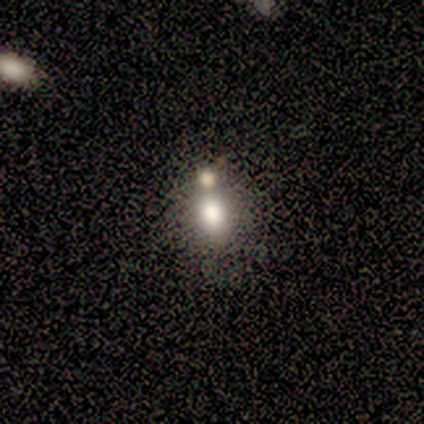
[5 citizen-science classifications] This appears to be a smooth galaxy with no disk features (80%) that is in between round and cigar-shaped (75%). Merging: none (75%).